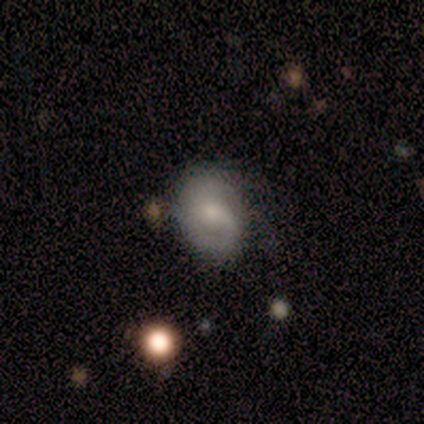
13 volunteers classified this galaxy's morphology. Smooth or featured: featured or disk — 46% (smooth — 38%)
Edge-on disk: no — 100%
Bar: no — 67% (weak — 33%)
Spiral arms: yes — 67% (no — 33%)
Spiral winding: medium — 100%
Spiral arm count: 1 — 50% (2 — 25%)
Bulge size: small — 50% (moderate — 33%)
Merging: none — 45% (minor disturbance — 36%)